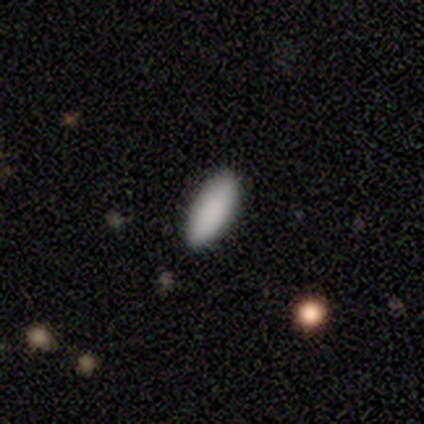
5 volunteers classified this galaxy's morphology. Overall: smooth (100%). How rounded: in between (100%). Merging: none (80%).